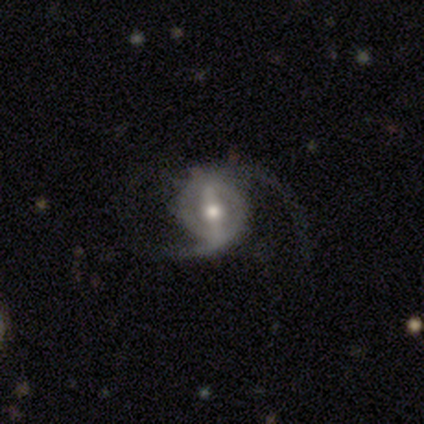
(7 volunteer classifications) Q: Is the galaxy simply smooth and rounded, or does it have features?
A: featured or disk — 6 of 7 (86%).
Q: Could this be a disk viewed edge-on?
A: no — 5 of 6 (83%).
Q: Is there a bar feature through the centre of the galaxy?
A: weak — 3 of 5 (60%).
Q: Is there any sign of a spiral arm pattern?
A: yes — 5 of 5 (100%).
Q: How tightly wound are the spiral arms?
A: loose — 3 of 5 (60%).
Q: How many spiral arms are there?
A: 2 — 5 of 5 (100%).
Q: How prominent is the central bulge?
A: small — 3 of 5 (60%).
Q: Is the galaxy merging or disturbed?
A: none — 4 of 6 (67%).